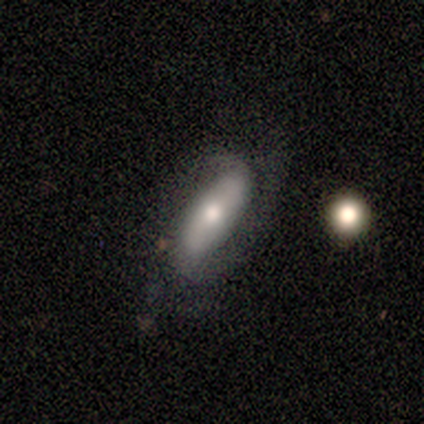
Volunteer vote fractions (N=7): Overall: featured or disk (71%). Edge-on disk: no (100%). Bar: no (80%). Spiral arms: yes (80%). Spiral arm count: 2 (75%). Spiral winding: medium (50%; tight 25%). Bulge size: moderate (80%). Merging: none (71%).